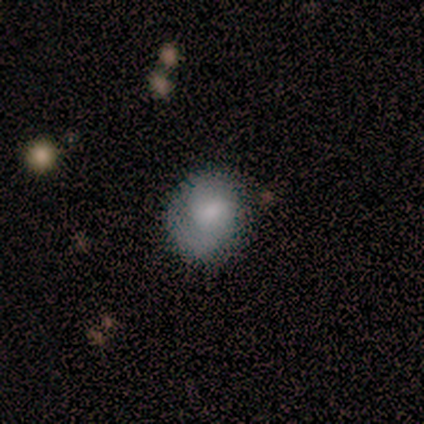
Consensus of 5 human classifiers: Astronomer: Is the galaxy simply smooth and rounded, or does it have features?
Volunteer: featured or disk — 60%.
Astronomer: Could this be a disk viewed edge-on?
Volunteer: no — 100%.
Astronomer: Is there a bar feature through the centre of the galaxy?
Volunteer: weak — 100%.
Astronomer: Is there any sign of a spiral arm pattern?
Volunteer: yes — 100%.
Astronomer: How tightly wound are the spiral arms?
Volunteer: medium — 67%.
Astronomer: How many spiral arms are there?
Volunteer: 1 — 33%, tied with 2 and 3 at 33%.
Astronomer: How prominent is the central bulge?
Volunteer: small — 67%.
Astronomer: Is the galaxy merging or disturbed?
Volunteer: none — 100%.